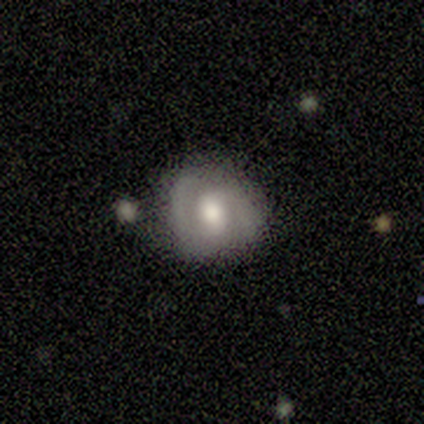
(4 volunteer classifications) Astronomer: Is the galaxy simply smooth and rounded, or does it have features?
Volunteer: featured or disk — 75%.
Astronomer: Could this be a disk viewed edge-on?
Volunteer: no — 100%.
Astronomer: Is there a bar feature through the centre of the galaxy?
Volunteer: weak — 67%.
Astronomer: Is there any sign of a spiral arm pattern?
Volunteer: yes — 100%.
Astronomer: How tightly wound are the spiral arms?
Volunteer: medium — 67%.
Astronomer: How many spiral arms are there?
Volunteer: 2 — 100%.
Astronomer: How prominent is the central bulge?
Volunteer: moderate — 67%.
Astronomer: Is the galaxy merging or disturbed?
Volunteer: none — 50%.